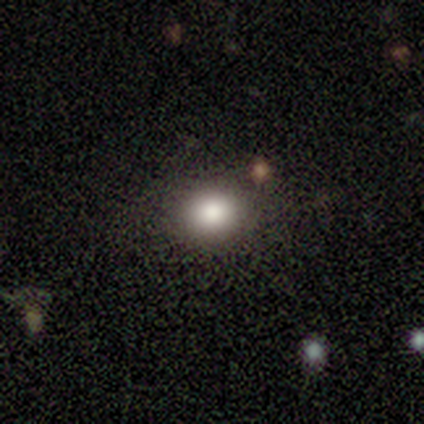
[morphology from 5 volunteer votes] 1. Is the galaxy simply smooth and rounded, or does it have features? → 100% smooth, 0% featured or disk, 0% star or artifact.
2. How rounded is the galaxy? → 60% round, 40% in between, 0% cigar-shaped.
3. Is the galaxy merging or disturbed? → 80% none, 20% minor disturbance, 0% major disturbance, 0% merger.